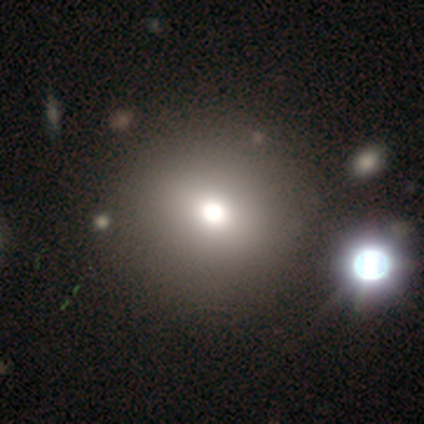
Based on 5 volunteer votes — smooth_or_featured: smooth (p=0.60) [alt: featured or disk p=0.20]
how_rounded: round (p=1.00)
merging: none (p=0.75) [alt: merger p=0.25]